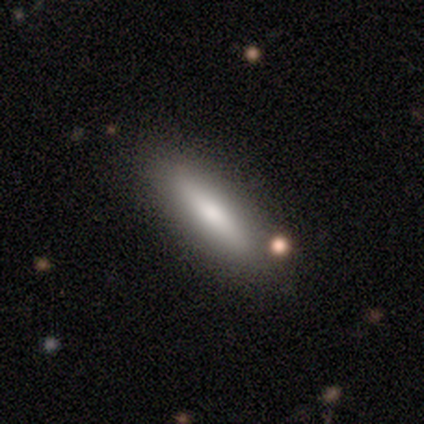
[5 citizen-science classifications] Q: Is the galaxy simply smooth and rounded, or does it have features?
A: smooth — 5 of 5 (100%).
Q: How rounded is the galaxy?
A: cigar-shaped — 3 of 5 (60%).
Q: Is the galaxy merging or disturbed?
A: none — 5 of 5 (100%).